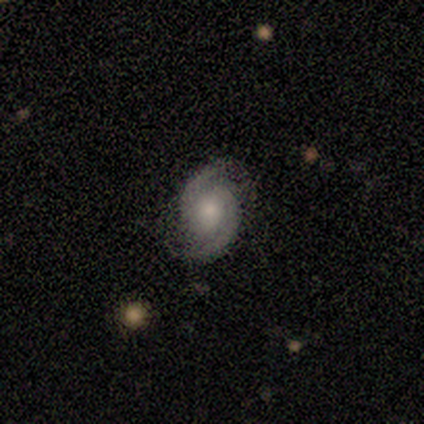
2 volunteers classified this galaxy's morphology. Smooth or featured? 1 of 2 (50%, tied with featured or disk) said smooth. How rounded? 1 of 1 (100%) said in between. Merging? 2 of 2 (100%) said minor disturbance.